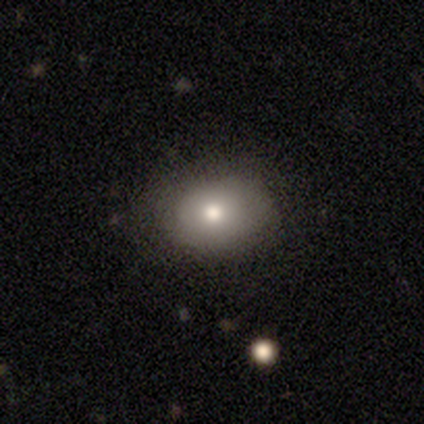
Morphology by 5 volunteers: smooth 80%, featured or disk 20%, star or artifact 0%. Down the decision tree: how rounded — round (50%, tied with in between); merging — none (100%).